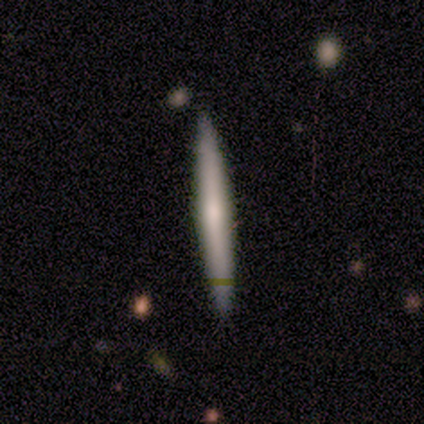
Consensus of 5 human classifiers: This is marginally a smooth galaxy (40%, tied with star or artifact). How rounded: clearly cigar-shaped (100%). Merging: clearly none (100%).